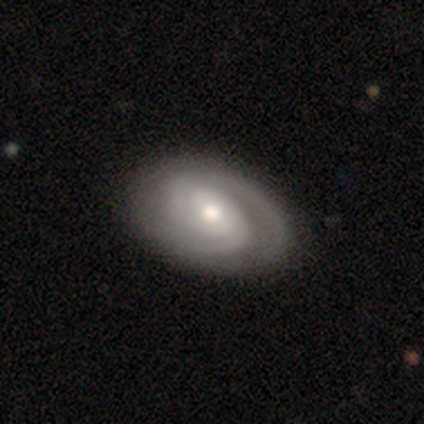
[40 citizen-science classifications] Smooth or featured? featured or disk (70%)
Edge-on disk? no (100%)
Bar? no (54%)
Spiral arms? yes (100%)
Spiral winding? tight (68%)
Spiral arm count? 2 (61%)
Bulge size? moderate (61%)
Merging? none (50%)